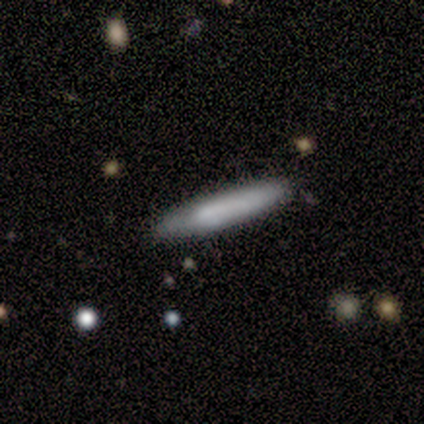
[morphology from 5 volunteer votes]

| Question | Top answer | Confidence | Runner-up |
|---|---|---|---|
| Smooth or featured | smooth | 60% | featured or disk (40%) |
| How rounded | cigar-shaped | 100% | — |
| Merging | none | 80% | minor disturbance (20%) |